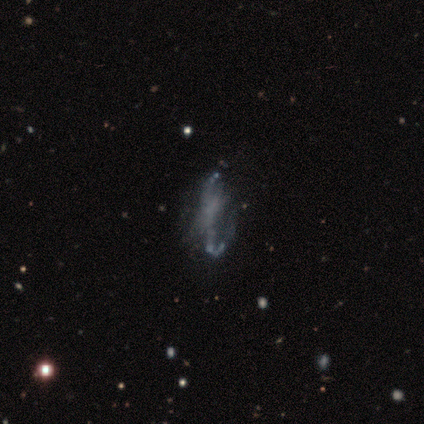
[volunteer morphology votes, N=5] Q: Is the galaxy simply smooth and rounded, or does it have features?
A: featured or disk — 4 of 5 (80%).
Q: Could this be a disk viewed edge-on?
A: no — 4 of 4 (100%).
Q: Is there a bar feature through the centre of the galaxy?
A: weak — 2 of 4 (50%, tied with no).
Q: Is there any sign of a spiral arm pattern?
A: no — 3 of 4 (75%).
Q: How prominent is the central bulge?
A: none — 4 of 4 (100%).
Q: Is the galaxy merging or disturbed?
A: none — 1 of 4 (25%, tied with minor disturbance, major disturbance and merger).